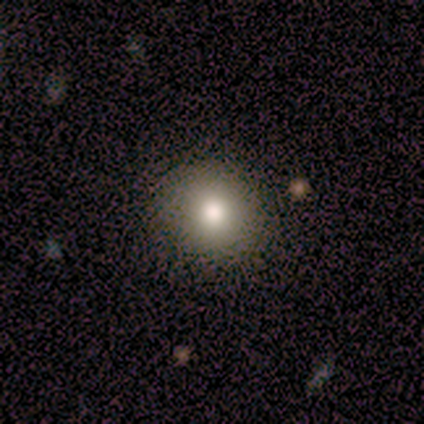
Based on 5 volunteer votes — A smooth galaxy with no disk features (60%) that is round (100%). Merging: none (100%).